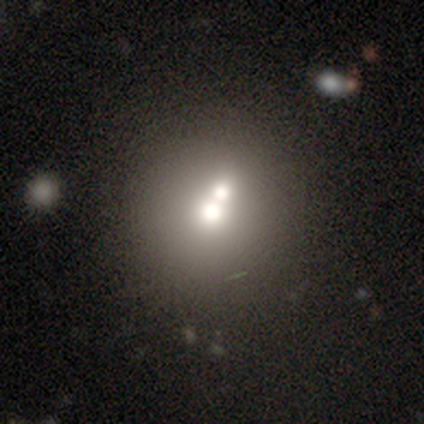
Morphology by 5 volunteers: Smooth or featured: featured or disk — 60% (smooth — 20%)
Edge-on disk: no — 100%
Bar: no — 100%
Spiral arms: no — 100%
Bulge size: large — 33% (tied with moderate — 33%; small — 33%)
Merging: merger — 100%